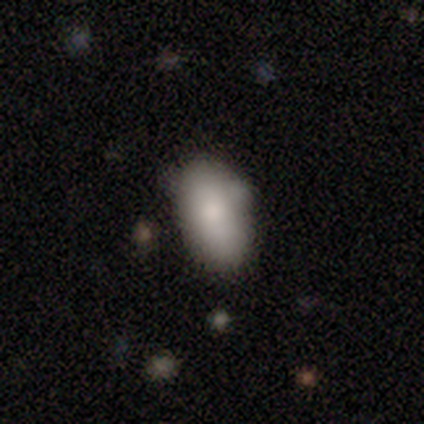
smooth 88%, featured or disk 12%, star or artifact 0%. Down the decision tree: how rounded — in between (100%); merging — none (75%).